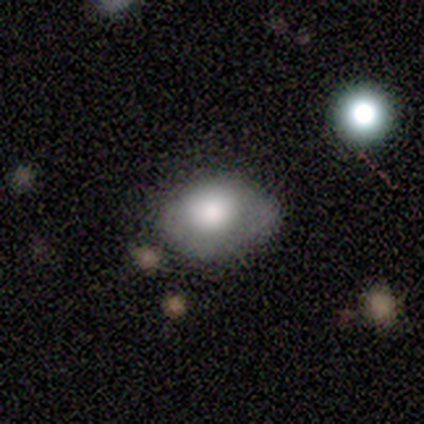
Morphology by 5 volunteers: smooth-or-featured: smooth: 100% | featured or disk: 0% | star or artifact: 0%
  how-rounded: in between: 100% | round: 0% | cigar-shaped: 0%
  merging: none: 60% | minor disturbance: 40% | major disturbance: 0% | merger: 0%